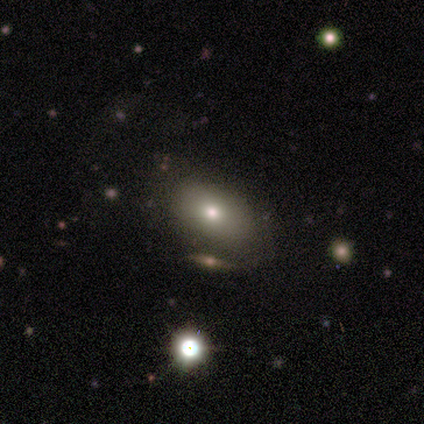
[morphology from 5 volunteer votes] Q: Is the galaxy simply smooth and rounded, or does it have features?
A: smooth — 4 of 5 (80%).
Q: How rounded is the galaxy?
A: in between — 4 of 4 (100%).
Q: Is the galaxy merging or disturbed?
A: none — 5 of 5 (100%).